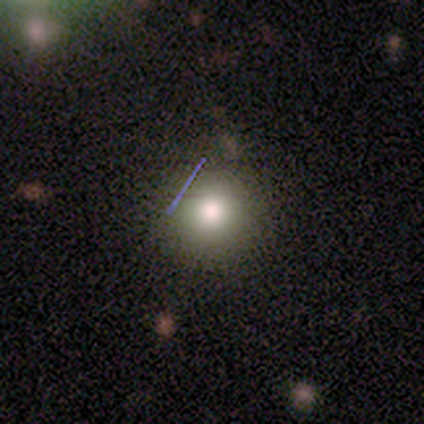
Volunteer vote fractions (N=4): Overall: smooth (100%). How rounded: round (100%). Merging: none (100%).